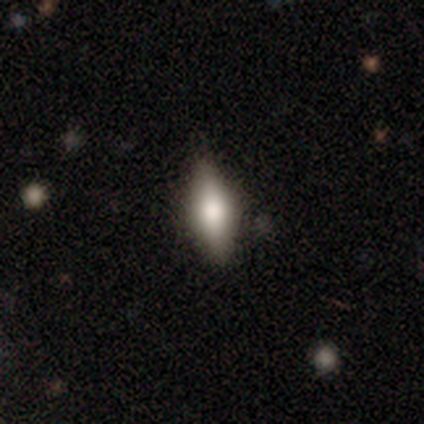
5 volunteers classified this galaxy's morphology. A smooth galaxy with no disk features (60%) that is cigar-shaped (67%).

Vote fractions:
- Smooth or featured? smooth: 60% / featured or disk: 40% / star or artifact: 0%
- How rounded? cigar-shaped: 67% / in between: 33% / round: 0%
- Merging? none: 60% / minor disturbance: 20% / merger: 20% / major disturbance: 0%